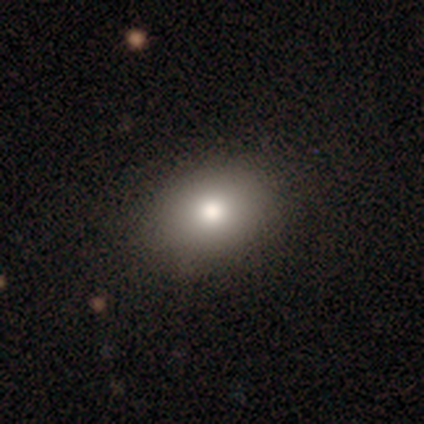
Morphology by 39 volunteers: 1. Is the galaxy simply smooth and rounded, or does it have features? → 77% smooth, 13% star or artifact, 10% featured or disk.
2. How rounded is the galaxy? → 77% in between, 23% round, 0% cigar-shaped.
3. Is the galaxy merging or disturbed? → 85% none, 9% minor disturbance, 3% major disturbance, 3% merger.